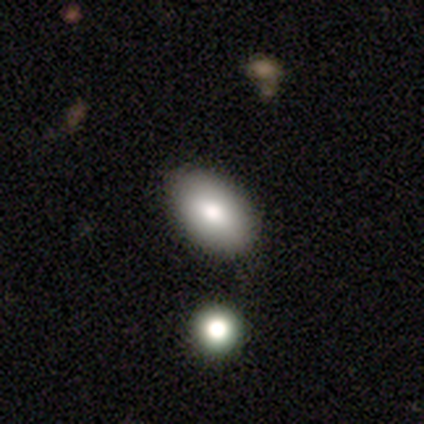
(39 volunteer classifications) A smooth galaxy with no disk features (74%) that is in between round and cigar-shaped (93%).

Vote fractions:
- Smooth or featured? smooth: 74% / featured or disk: 18% / star or artifact: 8%
- How rounded? in between: 93% / round: 7% / cigar-shaped: 0%
- Merging? none: 78% / minor disturbance: 14% / merger: 6% / major disturbance: 3%